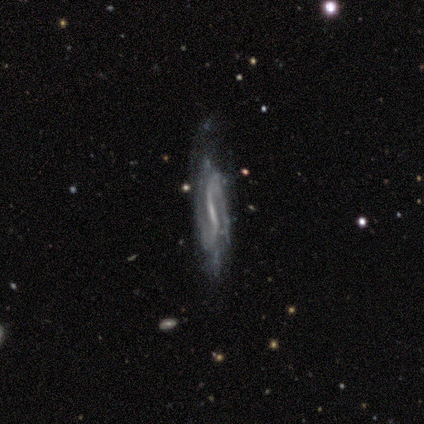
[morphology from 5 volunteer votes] Overall: featured or disk (80%). Edge-on disk: yes (50%, tied with no). Edge-on bulge: none (100%). Merging: minor disturbance (60%; none 40%).